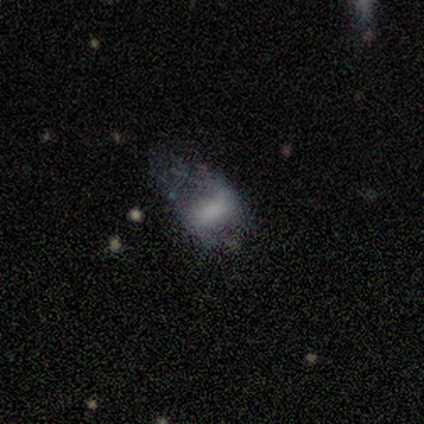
A featured or disk galaxy (60%) with a weak bar (67%), 2 (50%, tied with can't tell) tight (50%, tied with loose) spiral arms (67%) and a large central bulge (67%).

Vote fractions:
- Smooth or featured? featured or disk: 60% / smooth: 40% / star or artifact: 0%
- Edge-on disk? no: 100% / yes: 0%
- Bar? weak: 67% / no: 33% / strong: 0%
- Spiral arms? yes: 67% / no: 33%
- Spiral winding? tight: 50% (tied) / loose: 50% (tied) / medium: 0%
- Spiral arm count? 2: 50% (tied) / can't tell: 50% (tied) / 1: 0% / 3: 0% / 4: 0% / more than 4: 0%
- Bulge size? large: 67% / dominant: 33% / moderate: 0% / small: 0% / none: 0%
- Merging? major disturbance: 60% / none: 20% / minor disturbance: 20% / merger: 0%